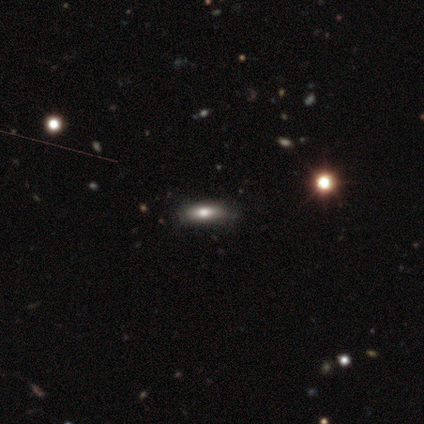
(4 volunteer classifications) A smooth galaxy with no disk features (100%) that is cigar-shaped (75%). Merging: none (100%).